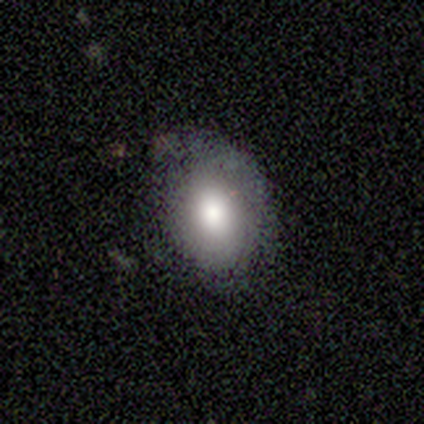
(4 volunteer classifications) smooth-or-featured: smooth: 50% (tied) | featured or disk: 50% (tied) | star or artifact: 0%
  how-rounded: in between: 100% | round: 0% | cigar-shaped: 0%
  merging: none: 100% | minor disturbance: 0% | major disturbance: 0% | merger: 0%